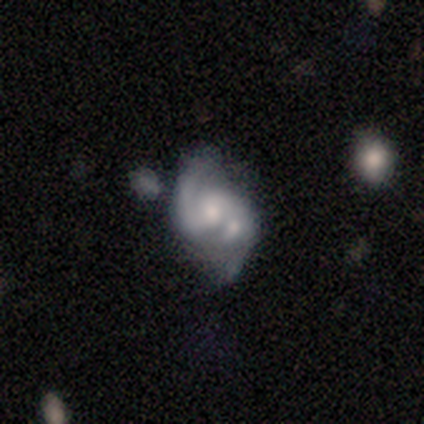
Q: Smooth or featured?
A: featured or disk (100%)
Q: Edge-on disk?
A: no (67%); runner-up: yes (33%)
Q: Bar?
A: strong (50%); tied with: no (50%)
Q: Spiral arms?
A: yes (100%)
Q: Spiral winding?
A: tight (50%); tied with: loose (50%)
Q: Spiral arm count?
A: 1 (50%); tied with: 2 (50%)
Q: Bulge size?
A: dominant (50%); tied with: moderate (50%)
Q: Merging?
A: minor disturbance (33%); tied with: major disturbance (33%); merger (33%)